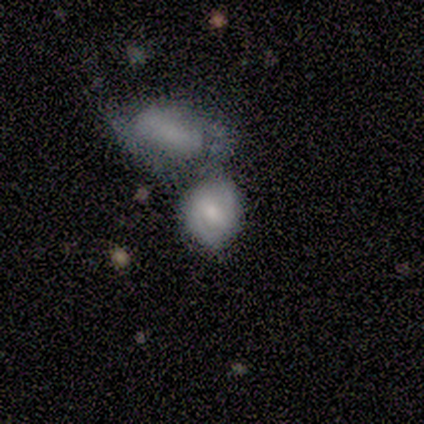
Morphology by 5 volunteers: Smooth or featured? 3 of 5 (60%) said smooth. How rounded? 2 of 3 (67%) said round. Merging? 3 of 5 (60%) said merger.